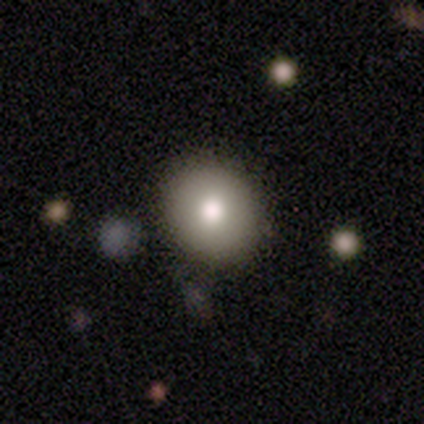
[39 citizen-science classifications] Volunteers were most divided on "how rounded": round: 53%, in between: 43%, cigar-shaped: 3%. More confident: merging — none (83%); smooth or featured — smooth (77%).